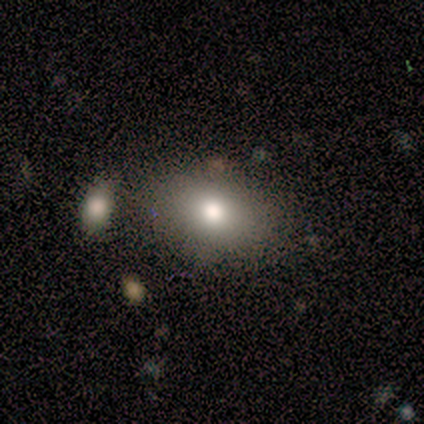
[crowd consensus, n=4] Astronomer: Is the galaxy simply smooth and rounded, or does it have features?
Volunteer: smooth — 100%.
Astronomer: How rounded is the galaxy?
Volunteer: in between — 100%.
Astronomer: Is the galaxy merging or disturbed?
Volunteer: none — 100%.